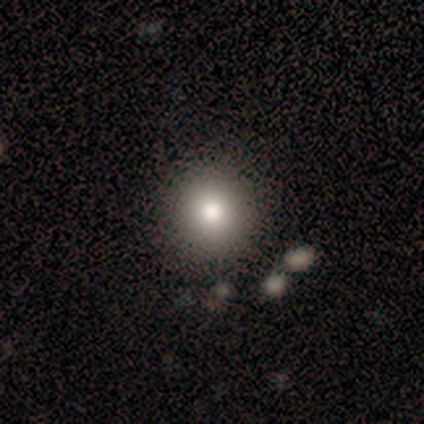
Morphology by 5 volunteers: Smooth or featured? smooth (40%, tied with star or artifact)
How rounded? round (100%)
Merging? none (100%)